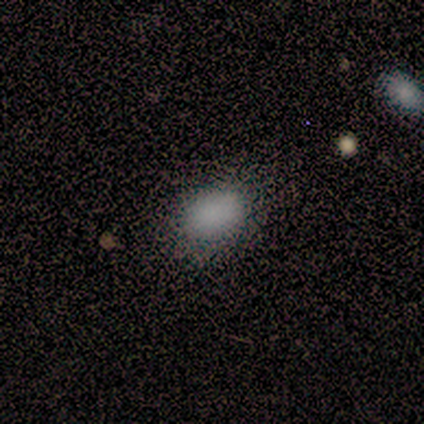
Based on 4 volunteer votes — smooth_or_featured: smooth (p=0.75) [alt: star or artifact p=0.25]
how_rounded: in between (p=0.67) [alt: round p=0.33]
merging: none (p=0.67) [alt: minor disturbance p=0.33]